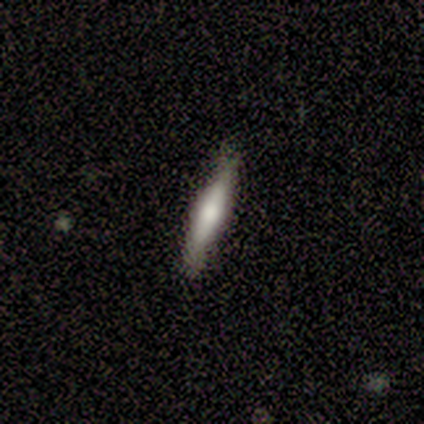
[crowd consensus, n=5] Smooth or featured?
  - smooth: 60% *
  - featured or disk: 40%
  - star or artifact: 0%
How rounded?
  - cigar-shaped: 100% *
  - round: 0%
  - in between: 0%
Merging?
  - none: 100% *
  - minor disturbance: 0%
  - major disturbance: 0%
  - merger: 0%